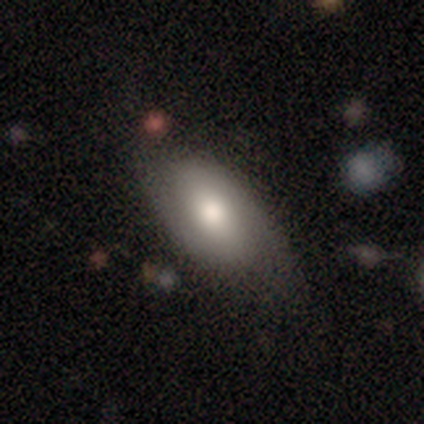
A smooth galaxy with no disk features (60%) that is in between round and cigar-shaped (100%). Merging: none (80%).